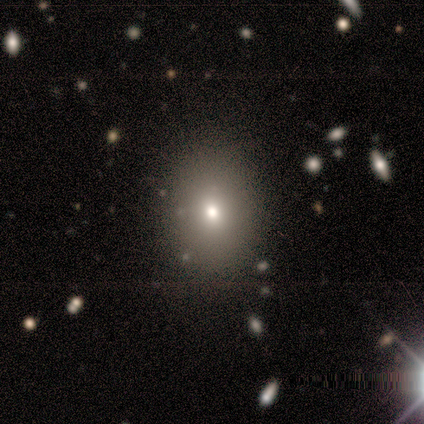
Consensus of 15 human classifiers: A smooth galaxy with no disk features (60%) that is in between round and cigar-shaped (67%). Merging: none (82%).